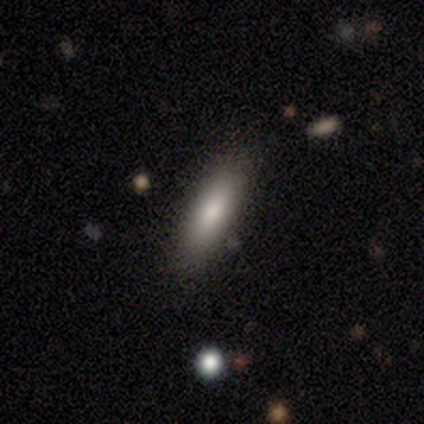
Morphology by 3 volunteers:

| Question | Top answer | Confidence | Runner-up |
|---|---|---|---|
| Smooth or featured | smooth | 67% | star or artifact (33%) |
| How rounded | cigar-shaped | 100% | — |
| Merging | none | 100% | — |